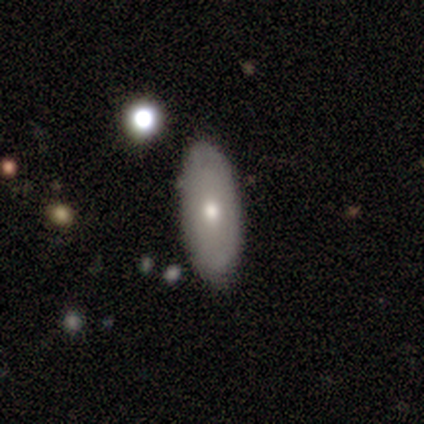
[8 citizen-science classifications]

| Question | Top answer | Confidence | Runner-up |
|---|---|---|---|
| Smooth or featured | featured or disk | 50% | smooth (25%) |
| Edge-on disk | no | 75% | yes (25%) |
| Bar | no | 100% | — |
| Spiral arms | no | 67% | yes (33%) |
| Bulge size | small | 67% | moderate (33%) |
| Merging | none | 100% | — |